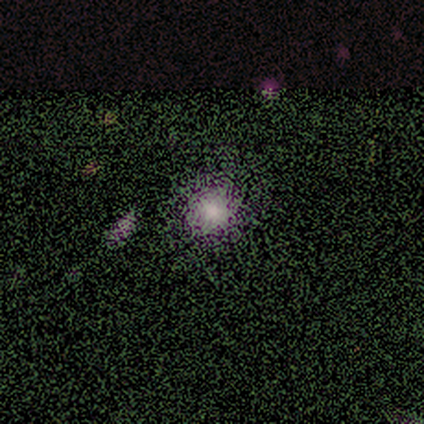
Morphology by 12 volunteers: Overall: smooth (83%). How rounded: round (90%). Merging: none (100%).